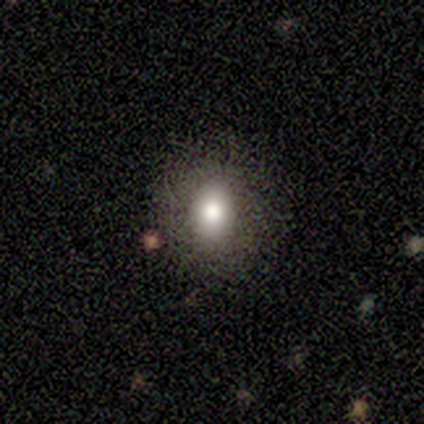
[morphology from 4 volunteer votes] Smooth or featured: smooth — 75% (featured or disk — 25%)
How rounded: round — 100%
Merging: none — 75% (merger — 25%)